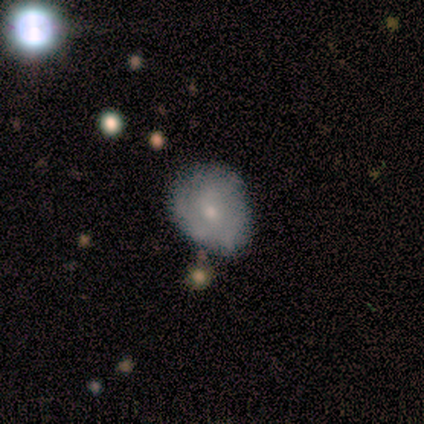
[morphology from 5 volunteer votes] smooth 60%, featured or disk 20%, star or artifact 20%. Down the decision tree: how rounded — in between (67%); merging — none (50%, tied with minor disturbance).